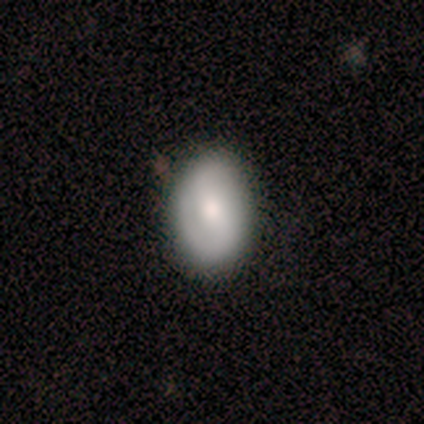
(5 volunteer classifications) Smooth or featured: smooth — 60% (featured or disk — 40%)
How rounded: in between — 67% (round — 33%)
Merging: none — 80% (minor disturbance — 20%)